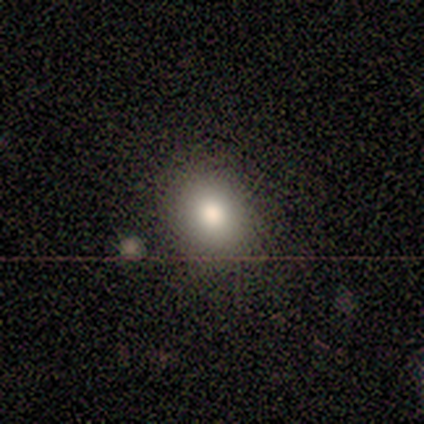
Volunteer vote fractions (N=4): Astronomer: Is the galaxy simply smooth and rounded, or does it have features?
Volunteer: smooth — 100%.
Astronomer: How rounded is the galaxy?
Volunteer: round — 50%, tied with in between at 50%.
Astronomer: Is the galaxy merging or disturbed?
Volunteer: none — 100%.